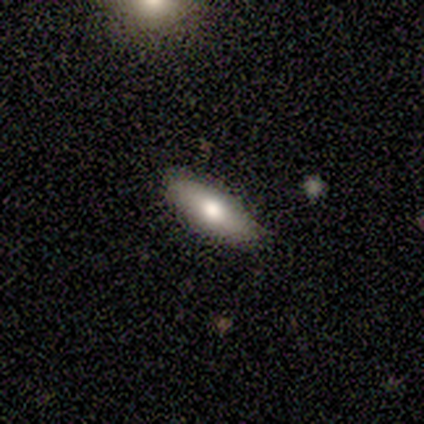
Overall: smooth (60%; featured or disk 20%). How rounded: in between (100%). Merging: none (50%; minor disturbance 25%).